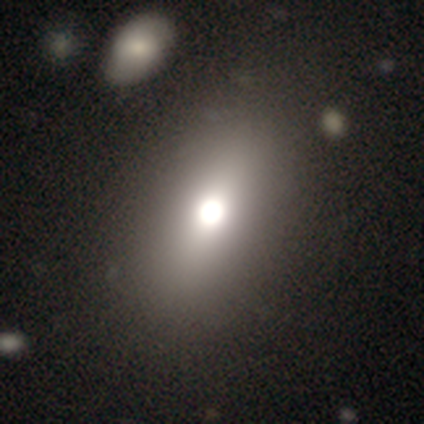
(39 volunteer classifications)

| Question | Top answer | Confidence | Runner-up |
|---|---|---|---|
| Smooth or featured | smooth | 69% | featured or disk (18%) |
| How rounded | in between | 78% | round (19%) |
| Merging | none | 74% | minor disturbance (6%) |